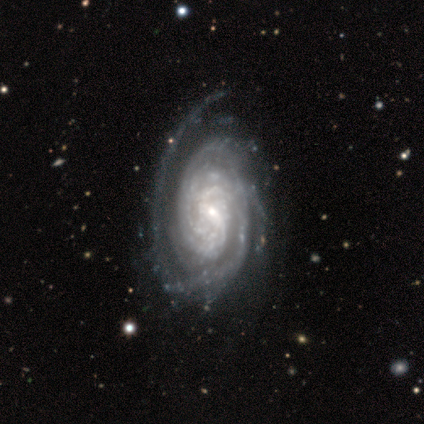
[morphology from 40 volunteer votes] featured or disk 98%, star or artifact 2%, smooth 0%. Down the decision tree: edge-on disk — no (97%); bar — weak (50%); spiral arms — yes (97%); spiral arm count — can't tell (41%); spiral winding — tight (76%); bulge size — small (53%); merging — none (49%).